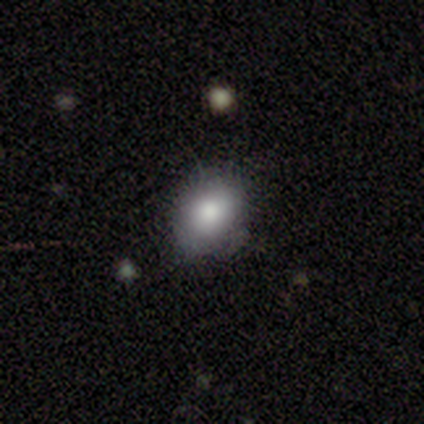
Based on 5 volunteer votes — Q: Smooth or featured?
A: smooth (60%); runner-up: star or artifact (40%)
Q: How rounded?
A: round (67%); runner-up: in between (33%)
Q: Merging?
A: none (67%); runner-up: minor disturbance (33%)